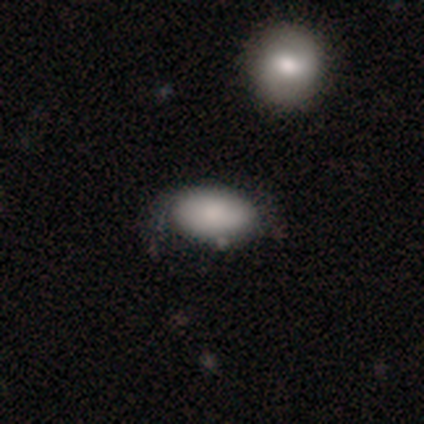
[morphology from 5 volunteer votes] A smooth galaxy with no disk features (60%) that is in between round and cigar-shaped (100%).

Vote fractions:
- Smooth or featured? smooth: 60% / featured or disk: 40% / star or artifact: 0%
- How rounded? in between: 100% / round: 0% / cigar-shaped: 0%
- Merging? none: 80% / minor disturbance: 20% / major disturbance: 0% / merger: 0%